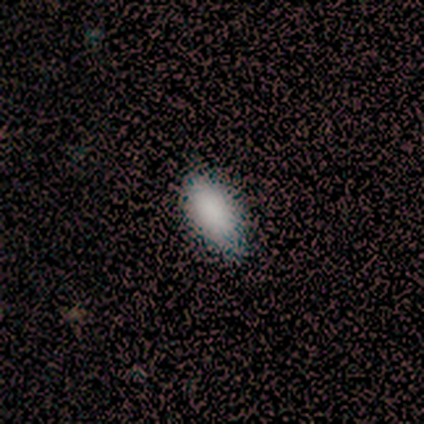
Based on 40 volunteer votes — A smooth galaxy with no disk features (90%) that is in between round and cigar-shaped (92%). Merging: none (50%).